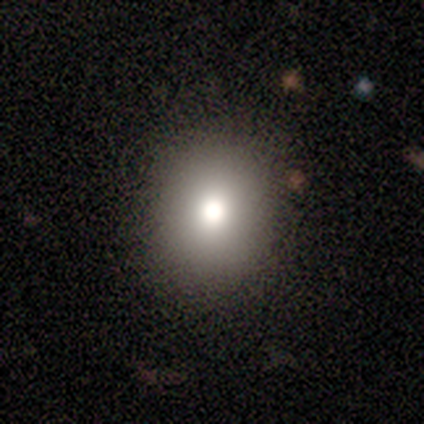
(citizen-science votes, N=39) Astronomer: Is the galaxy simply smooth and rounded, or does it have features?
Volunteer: smooth — 82%.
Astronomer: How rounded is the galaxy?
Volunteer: round — 66%.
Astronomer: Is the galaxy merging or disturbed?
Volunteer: none — 84%.